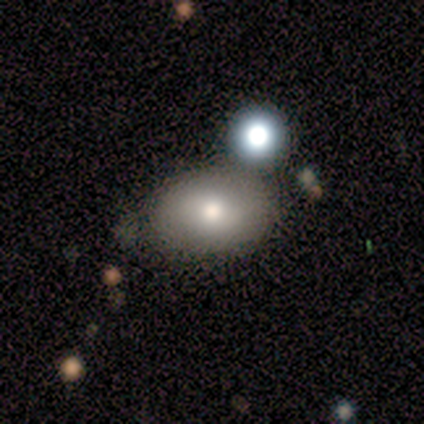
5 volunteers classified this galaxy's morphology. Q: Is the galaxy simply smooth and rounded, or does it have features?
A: smooth — 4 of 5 (80%).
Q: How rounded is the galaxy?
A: in between — 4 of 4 (100%).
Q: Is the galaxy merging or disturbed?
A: none — 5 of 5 (100%).